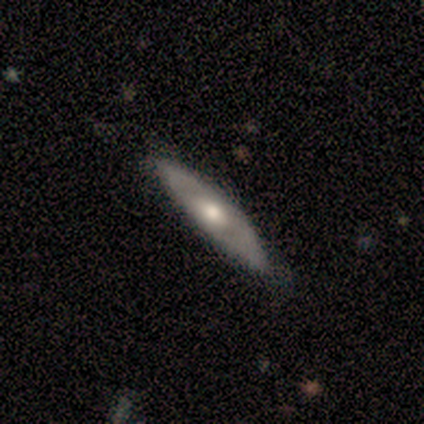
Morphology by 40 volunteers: Overall: featured or disk (57%; smooth 38%). Edge-on disk: yes (83%). Edge-on bulge: rounded (89%). Merging: none (92%).